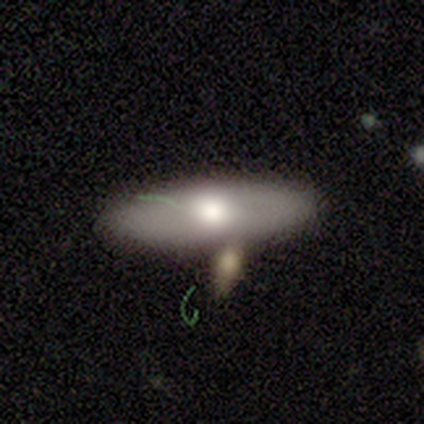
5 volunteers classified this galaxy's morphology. This is likely a featured or disk galaxy (60%). It is likely not viewed edge-on (67%). Bar: clearly no (100%). Spiral arm pattern: clearly no (100%). Central bulge: clearly moderate (100%). Merging: likely none (60%).